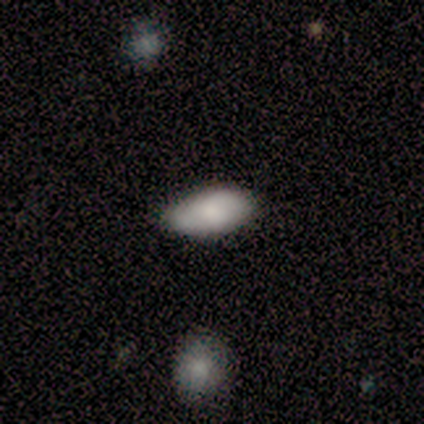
This appears to be a smooth galaxy with no disk features (100%) that is in between round and cigar-shaped (100%). Merging: none (80%).